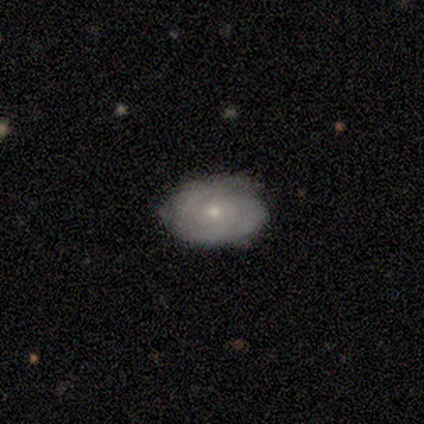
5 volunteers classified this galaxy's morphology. Q: Smooth or featured?
A: smooth (40%); tied with: featured or disk (40%)
Q: How rounded?
A: in between (100%)
Q: Merging?
A: none (100%)